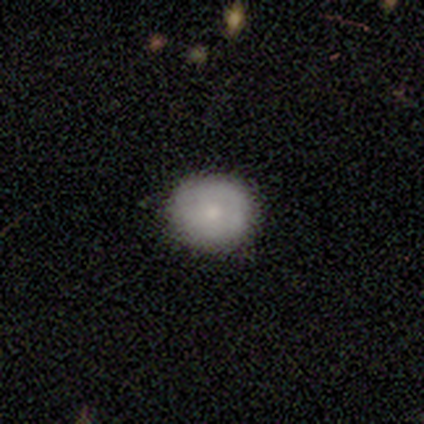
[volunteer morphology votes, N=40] A smooth galaxy with no disk features (75%) that is round (87%).

Vote fractions:
- Smooth or featured? smooth: 75% / featured or disk: 20% / star or artifact: 5%
- How rounded? round: 87% / in between: 13% / cigar-shaped: 0%
- Merging? none: 76% / major disturbance: 5% / minor disturbance: 0% / merger: 0%